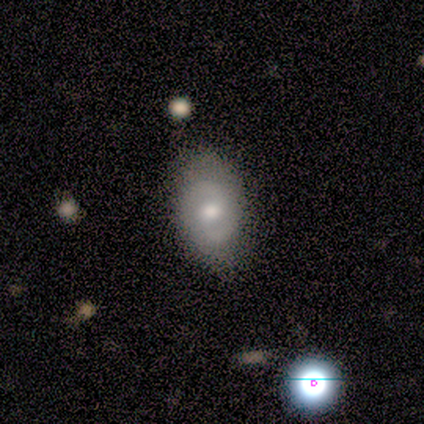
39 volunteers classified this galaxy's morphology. A featured or disk galaxy (51%) with no bar (90%), 2 (100%) tight (50%) spiral arms (70%) and a moderate central bulge (90%).

Vote fractions:
- Smooth or featured? featured or disk: 51% / smooth: 41% / star or artifact: 8%
- Edge-on disk? no: 100% / yes: 0%
- Bar? no: 90% / weak: 10% / strong: 0%
- Spiral arms? yes: 70% / no: 30%
- Spiral winding? tight: 50% / medium: 36% / loose: 14%
- Spiral arm count? 2: 100% / 1: 0% / 3: 0% / 4: 0% / more than 4: 0% / can't tell: 0%
- Bulge size? moderate: 90% / small: 10% / dominant: 0% / large: 0% / none: 0%
- Merging? none: 50% / minor disturbance: 22% / major disturbance: 3% / merger: 3%